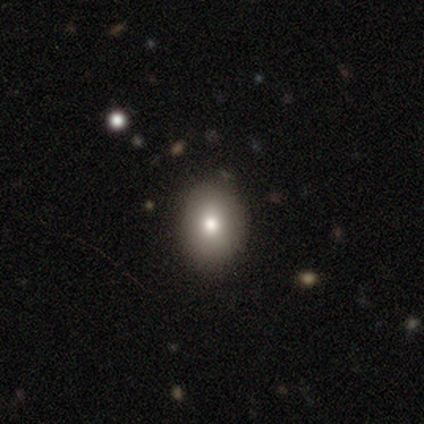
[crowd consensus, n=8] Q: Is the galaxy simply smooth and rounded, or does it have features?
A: smooth — 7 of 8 (88%).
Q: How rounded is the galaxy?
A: round — 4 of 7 (57%).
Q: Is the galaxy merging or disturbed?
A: none — 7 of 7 (100%).